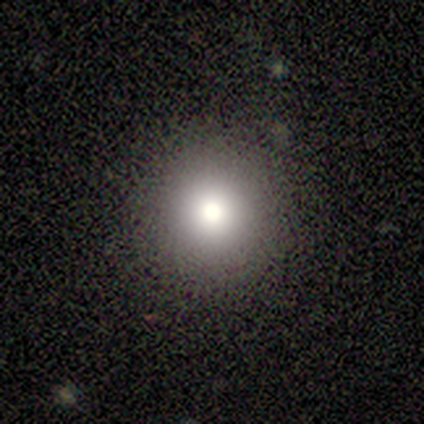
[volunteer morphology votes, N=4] A smooth galaxy with no disk features (100%) that is round (100%). Merging: none (100%).